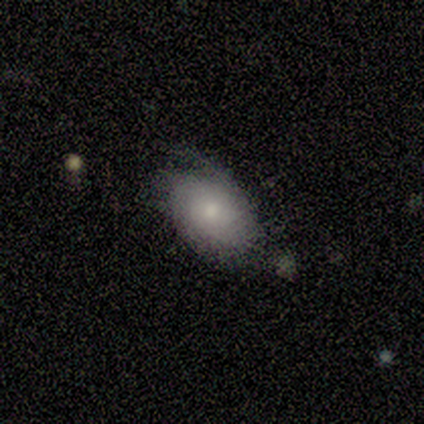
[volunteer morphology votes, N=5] This appears to be a featured or disk galaxy (80%) with no bar (75%), 1 (50%, tied with can't tell) tight (100%) spiral arms (50%, tied with no) and a moderate central bulge (50%, tied with small). Merging: none (80%).